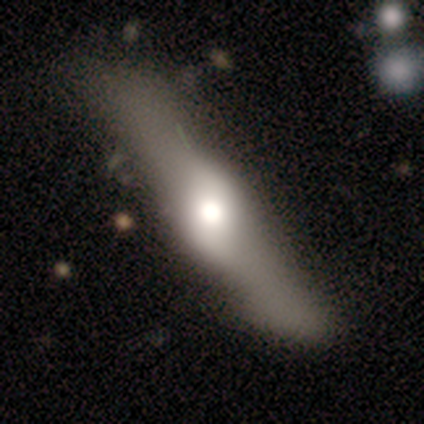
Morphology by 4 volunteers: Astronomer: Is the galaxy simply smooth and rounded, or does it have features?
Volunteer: smooth — 50%.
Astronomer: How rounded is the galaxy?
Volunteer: cigar-shaped — 100%.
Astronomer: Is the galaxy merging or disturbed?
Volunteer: minor disturbance — 67%.